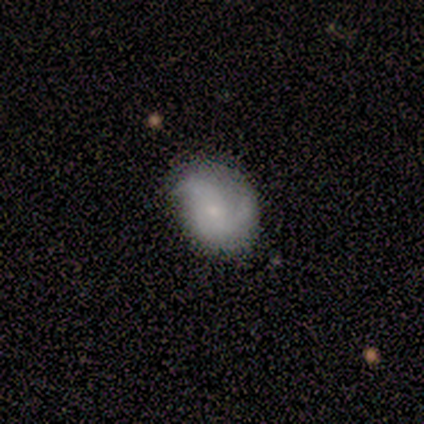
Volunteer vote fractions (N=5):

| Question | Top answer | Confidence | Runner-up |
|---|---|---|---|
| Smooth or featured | featured or disk | 80% | smooth (20%) |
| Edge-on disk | no | 100% | — |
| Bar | no | 100% | — |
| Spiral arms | yes | 50% | tied: no (50%) |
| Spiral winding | medium | 100% | — |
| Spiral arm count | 3 | 100% | — |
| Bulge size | small | 75% | moderate (25%) |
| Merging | none | 80% | minor disturbance (20%) |